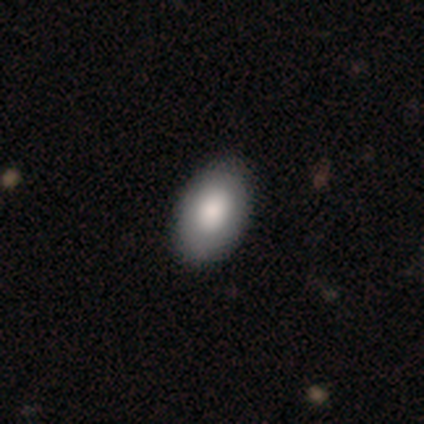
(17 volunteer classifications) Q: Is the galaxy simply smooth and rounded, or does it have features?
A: smooth — 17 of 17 (100%).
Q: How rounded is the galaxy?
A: in between — 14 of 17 (82%).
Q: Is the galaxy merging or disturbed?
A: none — 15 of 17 (88%).